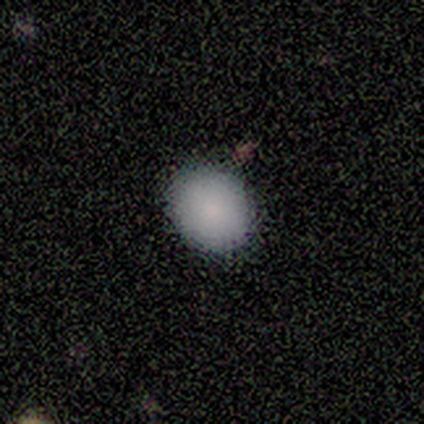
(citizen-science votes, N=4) This is clearly a smooth galaxy (100%). How rounded: likely round (75%). Merging: clearly none (100%).